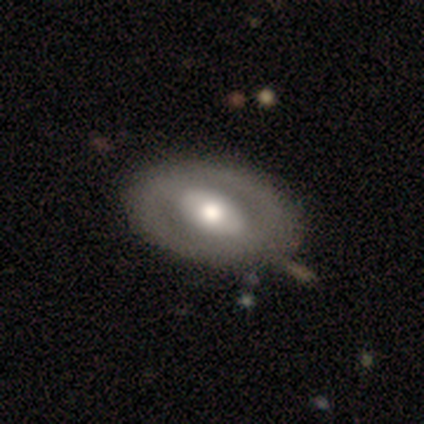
A featured or disk galaxy (63%) with a strong bar (57%), no spiral arms (91%) and a moderate central bulge (52%).

Vote fractions:
- Smooth or featured? featured or disk: 63% / smooth: 32% / star or artifact: 5%
- Edge-on disk? no: 96% / yes: 4%
- Bar? strong: 57% / no: 26% / weak: 17%
- Spiral arms? no: 91% / yes: 9%
- Bulge size? moderate: 52% / large: 48% / dominant: 0% / small: 0% / none: 0%
- Merging? none: 92% / major disturbance: 6% / minor disturbance: 3% / merger: 0%